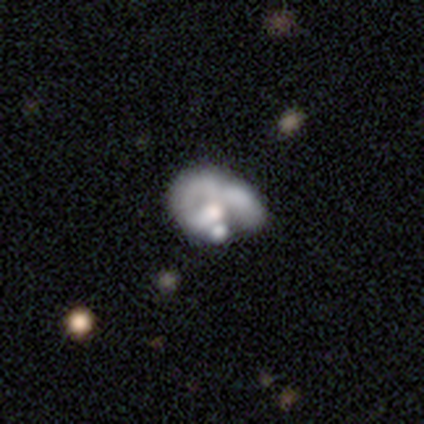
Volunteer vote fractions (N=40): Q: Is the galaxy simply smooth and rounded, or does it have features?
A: featured or disk — 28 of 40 (70%).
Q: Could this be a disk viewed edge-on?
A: no — 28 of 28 (100%).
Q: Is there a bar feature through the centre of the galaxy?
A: no — 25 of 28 (89%).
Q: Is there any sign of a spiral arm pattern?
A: no — 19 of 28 (68%).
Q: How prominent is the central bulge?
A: moderate — 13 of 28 (46%).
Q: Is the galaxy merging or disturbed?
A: merger — 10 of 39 (26%).